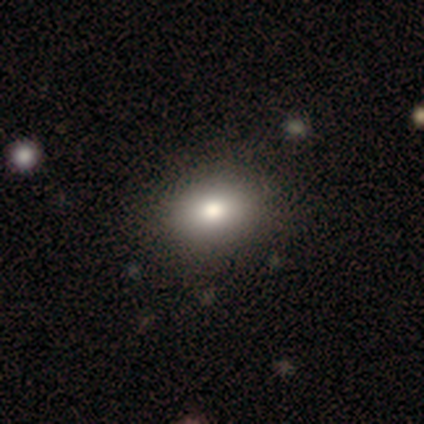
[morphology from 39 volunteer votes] Smooth or featured?
  - smooth: 82% *
  - star or artifact: 10%
  - featured or disk: 8%
How rounded?
  - in between: 81% *
  - round: 19%
  - cigar-shaped: 0%
Merging?
  - none: 94% *
  - major disturbance: 6%
  - minor disturbance: 0%
  - merger: 0%